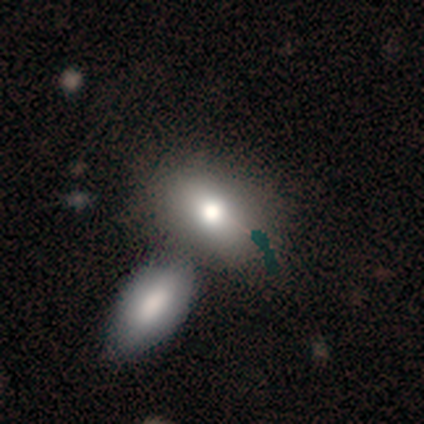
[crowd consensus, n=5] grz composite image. It shows a smooth galaxy with no disk features (100%) that is in between round and cigar-shaped (60%). Merging: merger (60%).